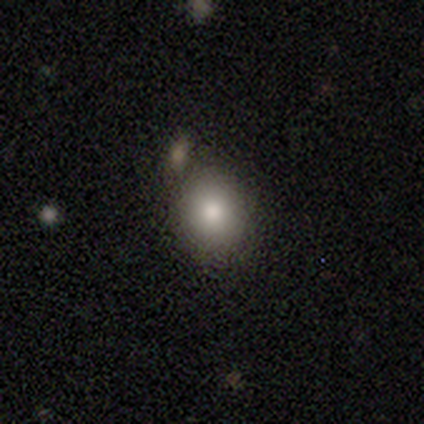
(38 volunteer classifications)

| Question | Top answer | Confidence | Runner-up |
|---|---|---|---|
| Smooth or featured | smooth | 87% | star or artifact (8%) |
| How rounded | round | 79% | in between (21%) |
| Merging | none | 66% | minor disturbance (20%) |